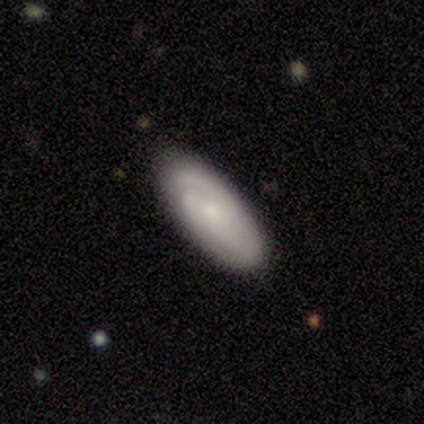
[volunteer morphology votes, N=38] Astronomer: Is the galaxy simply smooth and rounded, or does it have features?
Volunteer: featured or disk — 58% (runner-up: smooth, 39%).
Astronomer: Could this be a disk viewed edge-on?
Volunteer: no — 100%.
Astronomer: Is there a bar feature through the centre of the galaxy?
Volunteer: no — 86%.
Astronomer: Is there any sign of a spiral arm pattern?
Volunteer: yes — 95%.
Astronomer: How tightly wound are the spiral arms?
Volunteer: tight — 62%.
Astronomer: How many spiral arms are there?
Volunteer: can't tell — 52%.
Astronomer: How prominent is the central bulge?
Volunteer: small — 82%.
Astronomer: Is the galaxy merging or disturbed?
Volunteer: none — 86%.